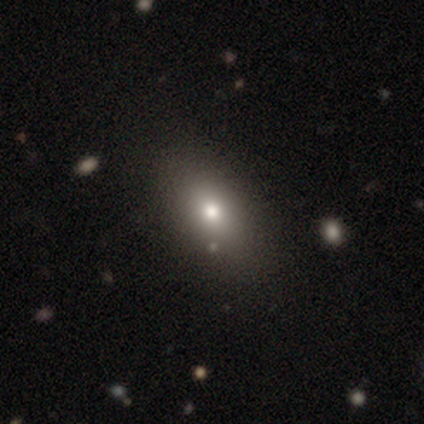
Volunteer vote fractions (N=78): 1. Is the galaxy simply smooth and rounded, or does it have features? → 81% smooth, 10% featured or disk, 9% star or artifact.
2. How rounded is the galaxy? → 84% in between, 11% round, 5% cigar-shaped.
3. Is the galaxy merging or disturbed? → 58% none, 4% minor disturbance, 1% merger, 0% major disturbance.